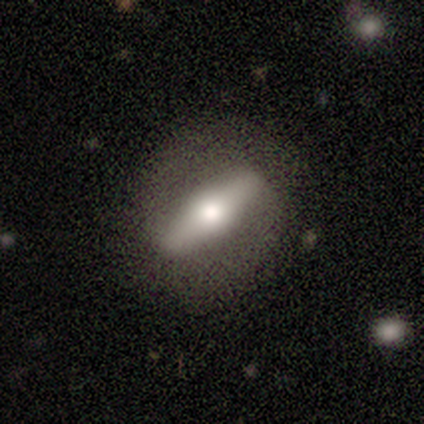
Volunteers were most divided on "smooth or featured": smooth: 60%, featured or disk: 40%, star or artifact: 0%. More confident: merging — none (80%); how rounded — cigar-shaped (67%).